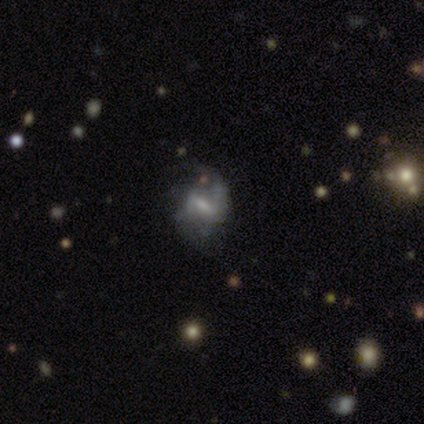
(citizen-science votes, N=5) Smooth or featured? 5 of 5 (100%) said featured or disk. Edge-on disk? 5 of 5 (100%) said no. Bar? 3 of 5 (60%) said strong. Spiral arms? 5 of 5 (100%) said yes. Spiral winding? 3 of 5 (60%) said medium. Spiral arm count? 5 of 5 (100%) said 2. Bulge size? 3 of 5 (60%) said moderate. Merging? 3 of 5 (60%) said minor disturbance.